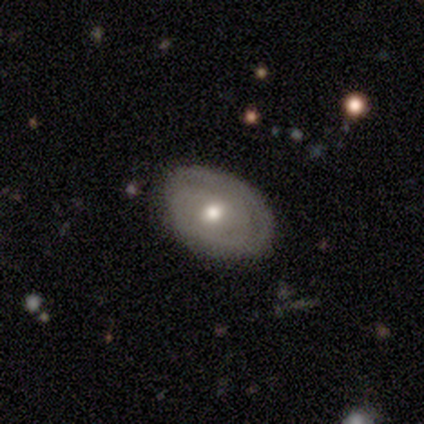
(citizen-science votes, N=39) Smooth or featured? featured or disk (59%)
Edge-on disk? no (100%)
Bar? no (87%)
Spiral arms? yes (52%)
Spiral winding? tight (58%)
Spiral arm count? can't tell (75%)
Bulge size? moderate (70%)
Merging? none (81%)